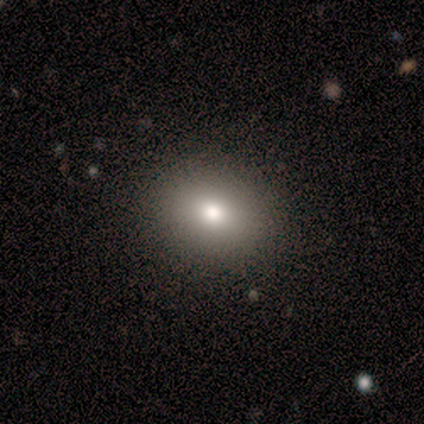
This is clearly a smooth galaxy (100%). How rounded: clearly round (80%). Merging: clearly none (80%).